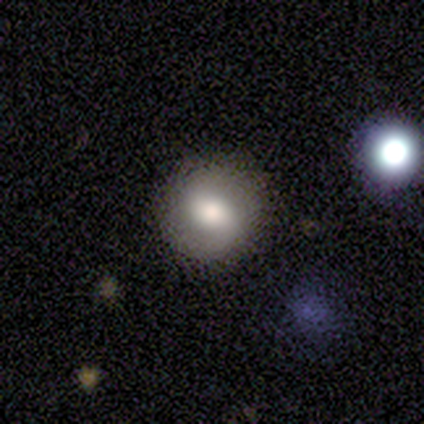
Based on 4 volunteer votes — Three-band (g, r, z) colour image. It shows a smooth galaxy with no disk features (50%, tied with featured or disk) that is round (100%). Merging: none (100%).